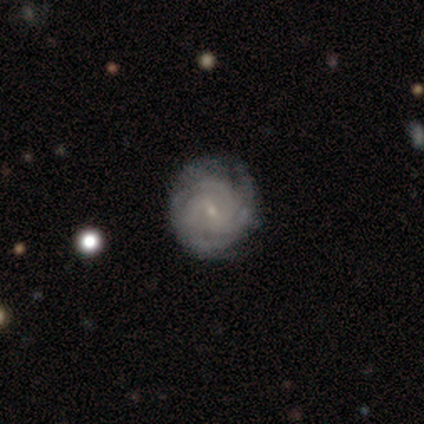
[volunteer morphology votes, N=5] Smooth or featured?
  - featured or disk: 80% *
  - star or artifact: 20%
  - smooth: 0%
Edge-on disk?
  - no: 100% *
  - yes: 0%
Bar?
  - weak: 50% *
  - strong: 25%
  - no: 25%
Spiral arms?
  - yes: 75% *
  - no: 25%
Spiral winding?
  - medium: 100% *
  - tight: 0%
  - loose: 0%
Spiral arm count?
  - can't tell: 67% *
  - 4: 33%
  - 1: 0%
  - 2: 0%
  - 3: 0%
  - more than 4: 0%
Bulge size?
  - small: 75% *
  - moderate: 25%
  - dominant: 0%
  - large: 0%
  - none: 0%
Merging?
  - none: 100% *
  - minor disturbance: 0%
  - major disturbance: 0%
  - merger: 0%